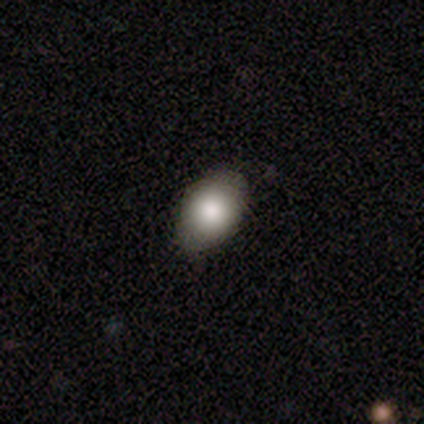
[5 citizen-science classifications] A smooth galaxy with no disk features (100%) that is in between round and cigar-shaped (100%).

Vote fractions:
- Smooth or featured? smooth: 100% / featured or disk: 0% / star or artifact: 0%
- How rounded? in between: 100% / round: 0% / cigar-shaped: 0%
- Merging? none: 60% / minor disturbance: 40% / major disturbance: 0% / merger: 0%